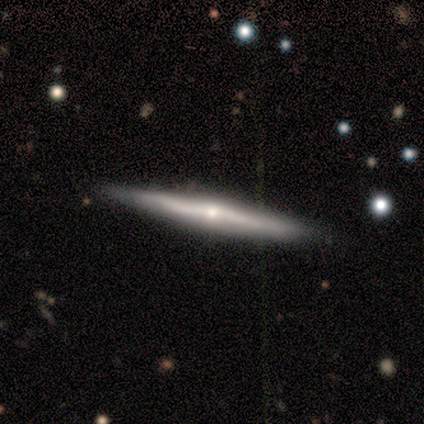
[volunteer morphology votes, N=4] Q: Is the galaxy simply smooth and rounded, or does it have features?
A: featured or disk — 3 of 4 (75%).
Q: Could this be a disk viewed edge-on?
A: yes — 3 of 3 (100%).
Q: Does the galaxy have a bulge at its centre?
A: rounded — 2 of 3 (67%).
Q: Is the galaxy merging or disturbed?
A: none — 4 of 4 (100%).